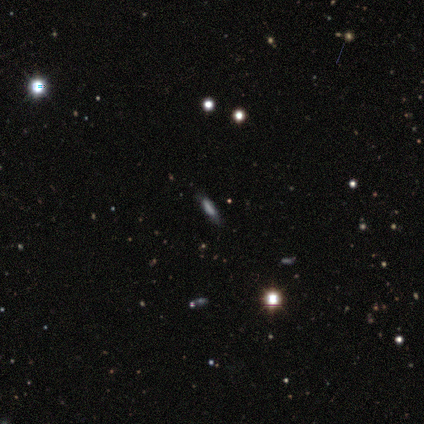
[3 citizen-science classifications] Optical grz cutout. It shows a smooth galaxy with no disk features (33%, tied with featured or disk and star or artifact) that is cigar-shaped (100%). Merging: none (50%, tied with minor disturbance).